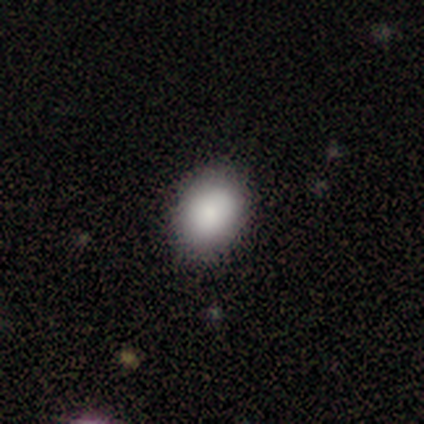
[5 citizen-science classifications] smooth_or_featured: smooth (p=1.00)
how_rounded: in between (p=1.00)
merging: none (p=0.60) [alt: minor disturbance p=0.40]